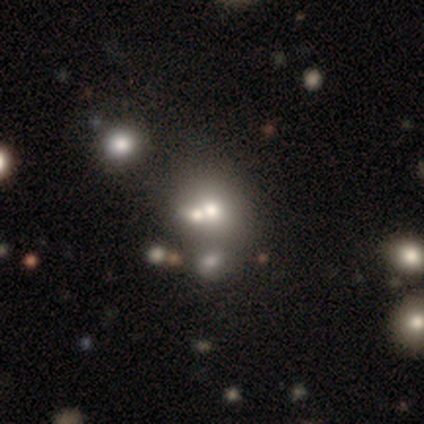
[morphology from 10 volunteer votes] Smooth or featured: smooth — 60% (star or artifact — 30%)
How rounded: round — 67% (in between — 33%)
Merging: merger — 57% (none — 43%)